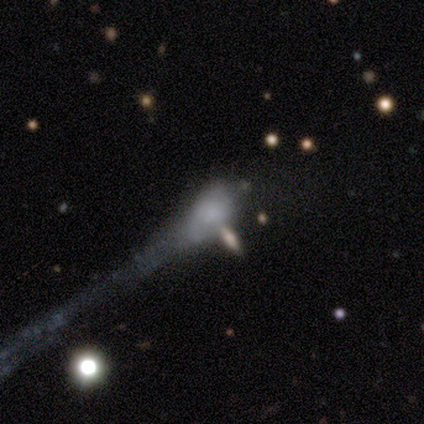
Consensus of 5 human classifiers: This appears to be a smooth galaxy with no disk features (60%) that is round (33%, tied with in between and cigar-shaped). Merging: major disturbance (50%, tied with merger).